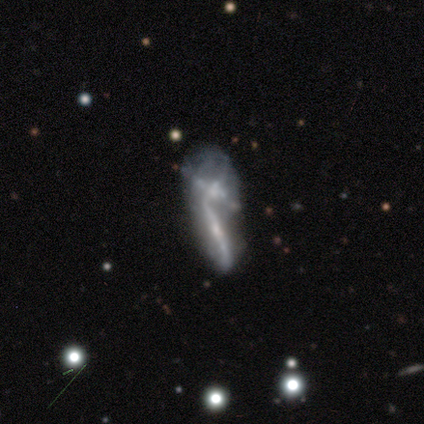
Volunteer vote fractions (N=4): This appears to be a smooth galaxy with no disk features (50%, tied with featured or disk) that is cigar-shaped (100%). Merging: merger (75%).